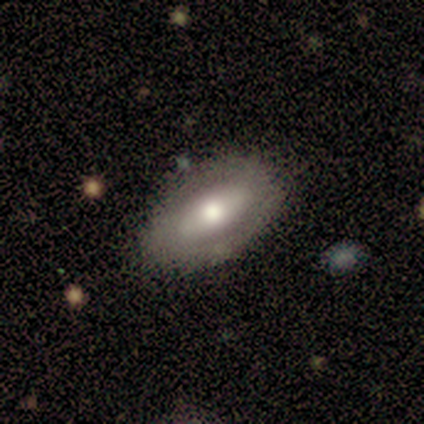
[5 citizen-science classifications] smooth_or_featured: smooth (p=0.60) [alt: featured or disk p=0.20]
how_rounded: in between (p=1.00)
merging: none (p=0.75) [alt: minor disturbance p=0.25]